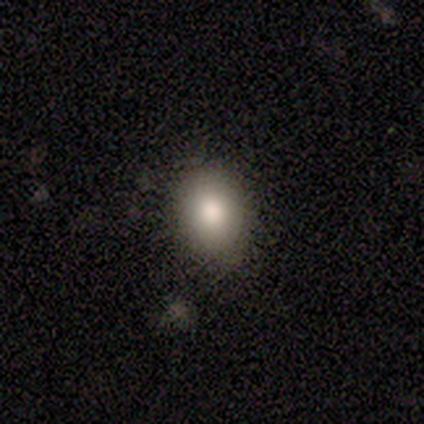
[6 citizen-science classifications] Smooth or featured?
  - smooth: 67% *
  - featured or disk: 33%
  - star or artifact: 0%
How rounded?
  - in between: 75% *
  - round: 25%
  - cigar-shaped: 0%
Merging?
  - none: 67% *
  - minor disturbance: 17%
  - major disturbance: 17%
  - merger: 0%